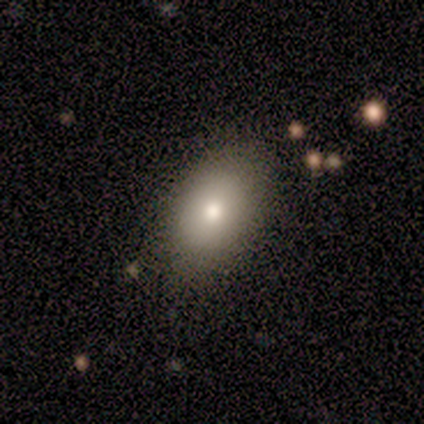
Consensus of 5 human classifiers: smooth 100%, featured or disk 0%, star or artifact 0%. Down the decision tree: how rounded — round (60%); merging — none (80%).